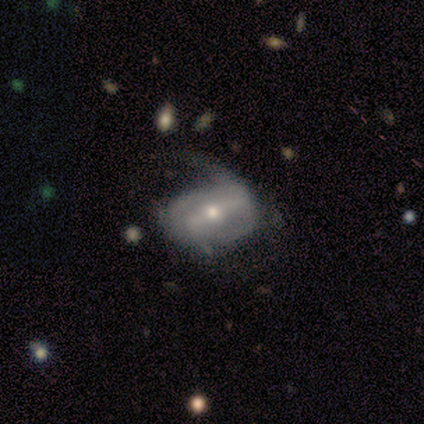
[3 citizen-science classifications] Q: Smooth or featured?
A: featured or disk (100%)
Q: Edge-on disk?
A: no (100%)
Q: Bar?
A: strong (67%); runner-up: no (33%)
Q: Spiral arms?
A: yes (67%); runner-up: no (33%)
Q: Spiral winding?
A: tight (50%); tied with: loose (50%)
Q: Spiral arm count?
A: 2 (50%); tied with: can't tell (50%)
Q: Bulge size?
A: moderate (100%)
Q: Merging?
A: minor disturbance (67%); runner-up: major disturbance (33%)